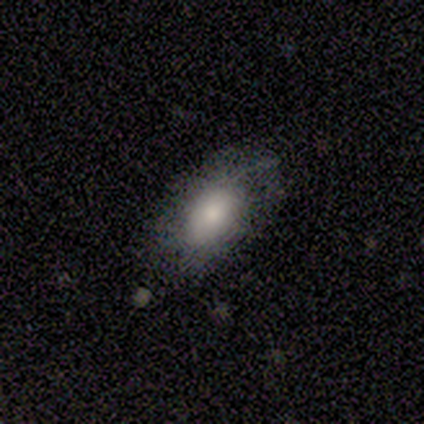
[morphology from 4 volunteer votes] smooth_or_featured: smooth (p=0.75) [alt: featured or disk p=0.25]
how_rounded: in between (p=0.67) [alt: cigar-shaped p=0.33]
merging: none (p=0.75) [alt: minor disturbance p=0.25]